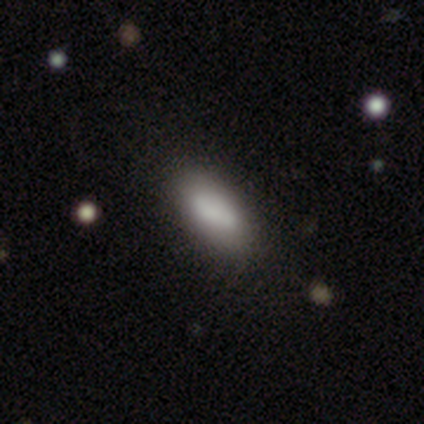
smooth 83%, featured or disk 17%, star or artifact 0%. Down the decision tree: how rounded — in between (100%); merging — none (50%).